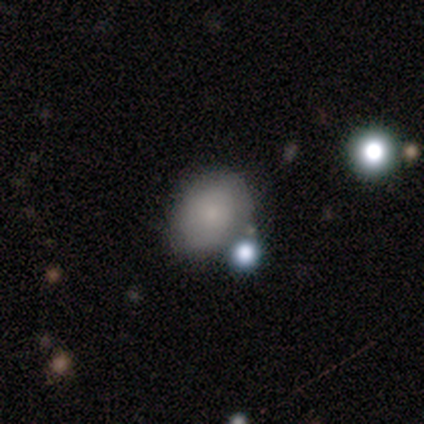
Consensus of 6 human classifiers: smooth_or_featured: smooth (p=0.67) [alt: featured or disk p=0.33]
how_rounded: round (p=0.75) [alt: in between p=0.25]
merging: none (p=0.67) [alt: minor disturbance p=0.33]